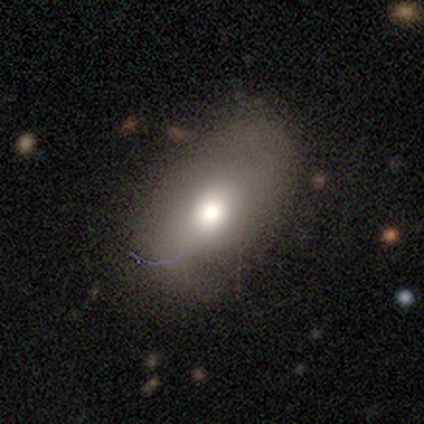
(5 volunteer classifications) Q: Smooth or featured?
A: smooth (60%); runner-up: featured or disk (40%)
Q: How rounded?
A: in between (100%)
Q: Merging?
A: none (80%); runner-up: minor disturbance (20%)